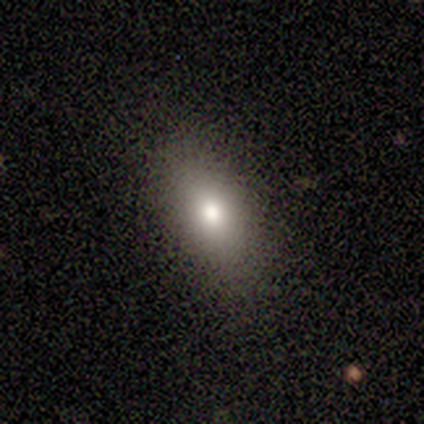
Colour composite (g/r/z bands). It shows a star or artifact, not a galaxy (50%).